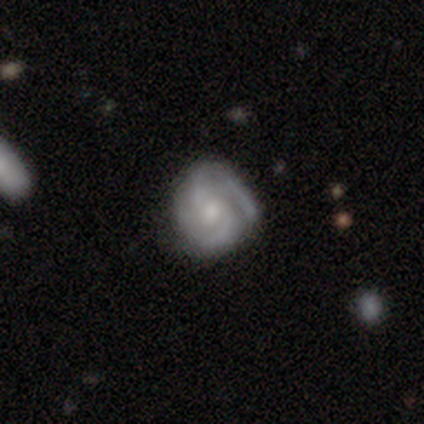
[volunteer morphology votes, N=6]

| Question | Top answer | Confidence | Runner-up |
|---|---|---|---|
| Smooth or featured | featured or disk | 100% | — |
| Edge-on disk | no | 100% | — |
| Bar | no | 67% | weak (33%) |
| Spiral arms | yes | 83% | no (17%) |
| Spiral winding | medium | 60% | tight (40%) |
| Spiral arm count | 2 | 60% | 3 (20%) |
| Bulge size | small | 67% | moderate (33%) |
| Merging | none | 67% | minor disturbance (33%) |